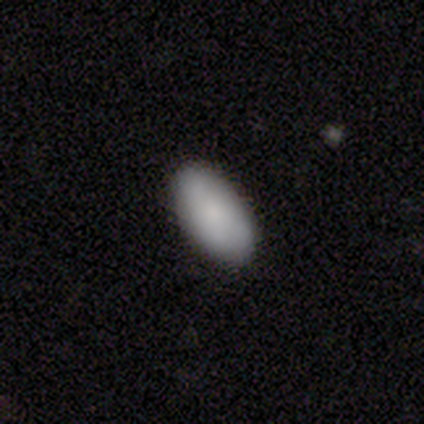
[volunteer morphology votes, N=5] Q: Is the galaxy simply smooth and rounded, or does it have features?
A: smooth — 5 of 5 (100%).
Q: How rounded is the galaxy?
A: in between — 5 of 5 (100%).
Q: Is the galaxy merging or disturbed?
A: none — 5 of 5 (100%).